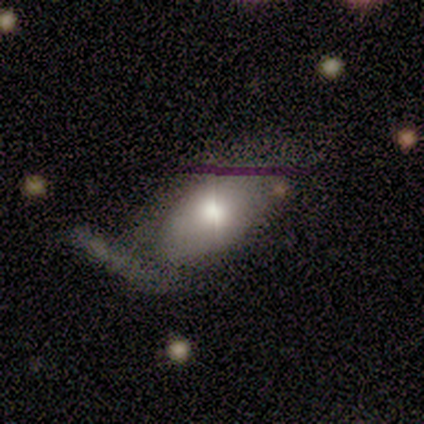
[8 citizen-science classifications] Smooth or featured?
  - smooth: 75% *
  - featured or disk: 12%
  - star or artifact: 12%
How rounded?
  - in between: 100% *
  - round: 0%
  - cigar-shaped: 0%
Merging?
  - none: 43% *
  - minor disturbance: 29%
  - major disturbance: 29%
  - merger: 0%